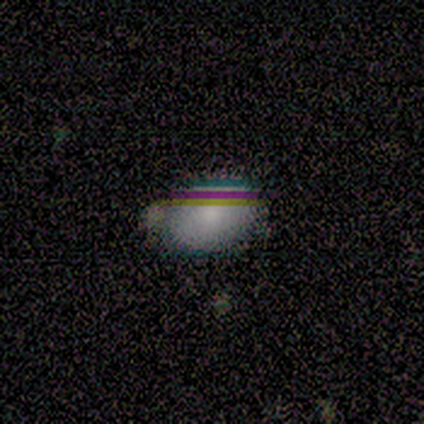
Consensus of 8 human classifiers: Volunteers were most divided on "merging" (2-way tie): none: 50%, minor disturbance: 50%, major disturbance: 0%, merger: 0%. More confident: how rounded — in between (100%); smooth or featured — smooth (62%).